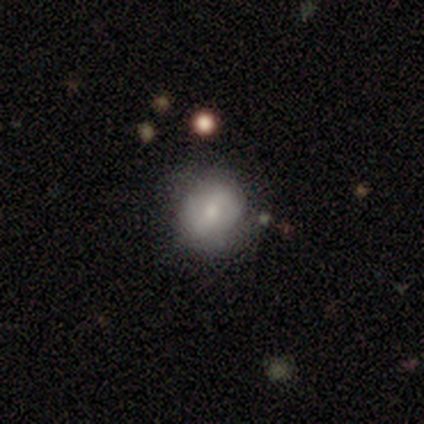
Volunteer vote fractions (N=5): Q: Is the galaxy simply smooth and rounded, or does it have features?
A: featured or disk — 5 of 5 (100%).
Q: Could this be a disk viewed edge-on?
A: no — 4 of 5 (80%).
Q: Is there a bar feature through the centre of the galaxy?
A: weak — 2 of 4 (50%, tied with no).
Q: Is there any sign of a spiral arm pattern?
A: no — 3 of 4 (75%).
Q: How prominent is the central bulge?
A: moderate — 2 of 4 (50%, tied with small).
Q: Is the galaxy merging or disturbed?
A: none — 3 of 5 (60%).